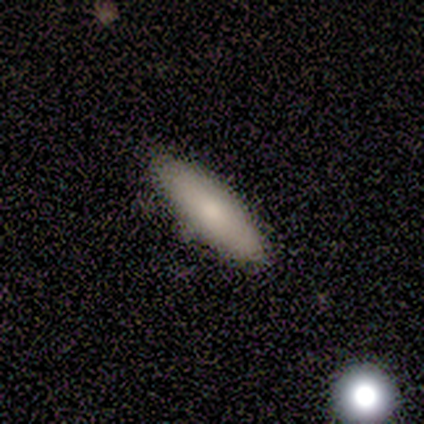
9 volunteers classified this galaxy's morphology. Volunteers were most divided on "smooth or featured": smooth: 67%, star or artifact: 22%, featured or disk: 11%. More confident: merging — none (86%); how rounded — in between (83%).